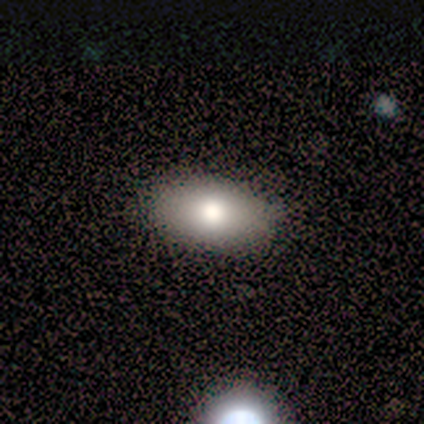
Smooth or featured? 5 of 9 (56%) said smooth. How rounded? 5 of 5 (100%) said in between. Merging? 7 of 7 (100%) said none.